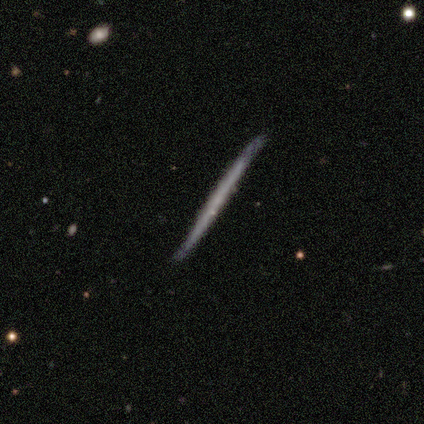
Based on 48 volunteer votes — Volunteers were most divided on "smooth or featured": featured or disk: 60%, smooth: 35%, star or artifact: 4%. More confident: edge-on disk — yes (100%); edge-on bulge — none (100%); merging — none (80%).